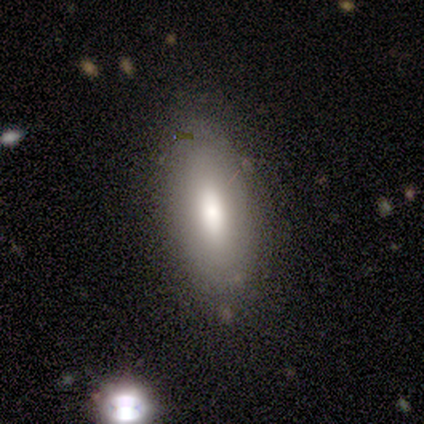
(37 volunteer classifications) smooth-or-featured: smooth: 81% | featured or disk: 16% | star or artifact: 3%
  how-rounded: in between: 73% | cigar-shaped: 20% | round: 7%
  merging: none: 75% | minor disturbance: 11% | merger: 8% | major disturbance: 6%